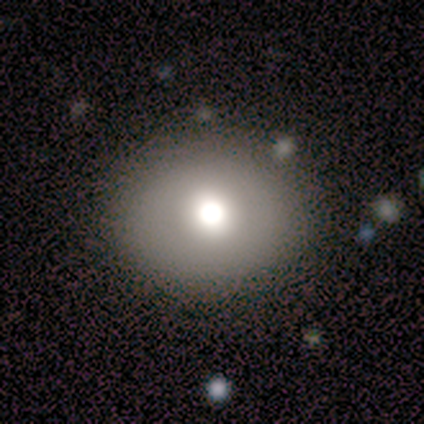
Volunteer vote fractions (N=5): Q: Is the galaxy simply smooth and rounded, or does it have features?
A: featured or disk — 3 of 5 (60%).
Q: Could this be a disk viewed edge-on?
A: no — 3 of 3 (100%).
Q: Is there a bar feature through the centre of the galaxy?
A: no — 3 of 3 (100%).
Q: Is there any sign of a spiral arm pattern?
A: no — 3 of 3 (100%).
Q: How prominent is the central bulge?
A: moderate — 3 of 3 (100%).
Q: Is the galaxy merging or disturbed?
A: none — 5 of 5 (100%).